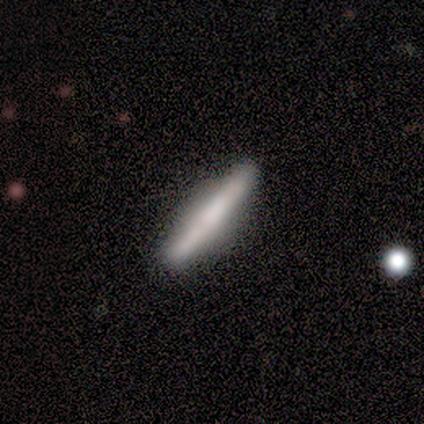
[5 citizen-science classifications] A featured or disk galaxy (60%) viewed edge-on (100%) with a rounded central bulge (67%). Merging: none (80%).